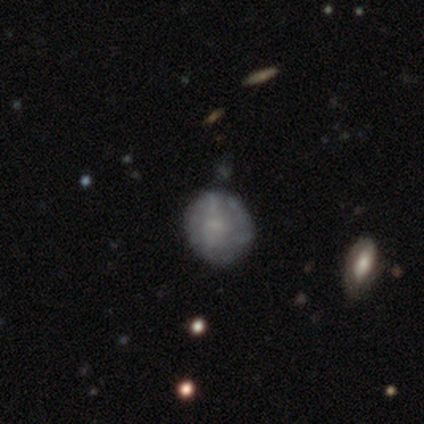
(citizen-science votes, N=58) This appears to be a featured or disk galaxy (48%) with no bar (71%), no spiral arms (71%) and no central bulge (54%). Merging: none (73%).